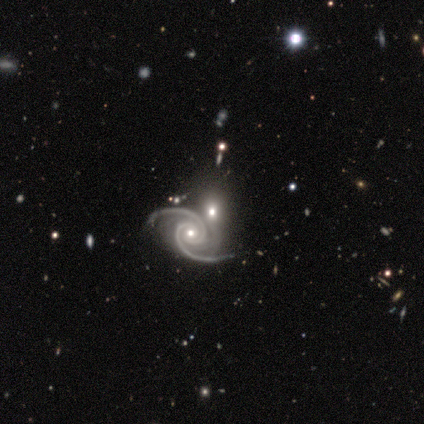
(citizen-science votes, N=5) smooth-or-featured: featured or disk: 80% | smooth: 20% | star or artifact: 0%
  disk-edge-on: no: 100% | yes: 0%
    bar: no: 75% | strong: 25% | weak: 0%
    has-spiral-arms: yes: 100% | no: 0%
      spiral-winding: tight: 75% | medium: 25% | loose: 0%
      spiral-arm-count: 2: 100% | 1: 0% | 3: 0% | 4: 0% | more than 4: 0% | can't tell: 0%
    bulge-size: small: 75% | moderate: 25% | dominant: 0% | large: 0% | none: 0%
  merging: none: 60% | merger: 40% | minor disturbance: 0% | major disturbance: 0%